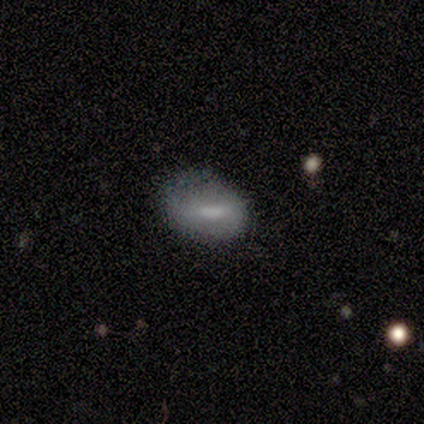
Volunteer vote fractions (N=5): Q: Smooth or featured?
A: smooth (60%); runner-up: featured or disk (40%)
Q: How rounded?
A: in between (100%)
Q: Merging?
A: none (60%); runner-up: minor disturbance (20%)